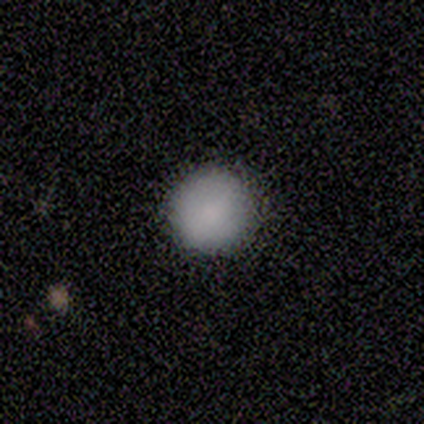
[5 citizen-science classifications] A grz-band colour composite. It shows a smooth galaxy with no disk features (80%) that is round (100%). Merging: none (80%).